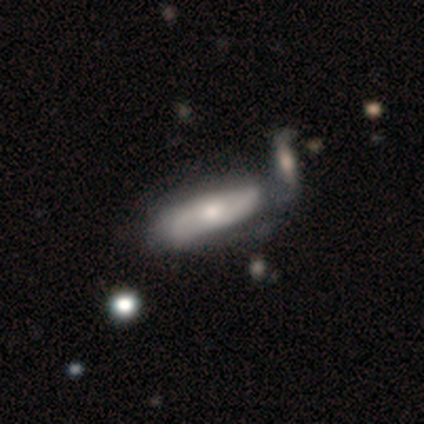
A featured or disk galaxy (62%) with no bar (100%), no spiral arms (80%) and a small central bulge (60%).

Vote fractions:
- Smooth or featured? featured or disk: 62% / smooth: 38% / star or artifact: 0%
- Edge-on disk? no: 100% / yes: 0%
- Bar? no: 100% / strong: 0% / weak: 0%
- Spiral arms? no: 80% / yes: 20%
- Bulge size? small: 60% / large: 20% / moderate: 20% / dominant: 0% / none: 0%
- Merging? minor disturbance: 38% (tied) / merger: 38% (tied) / none: 25% / major disturbance: 0%